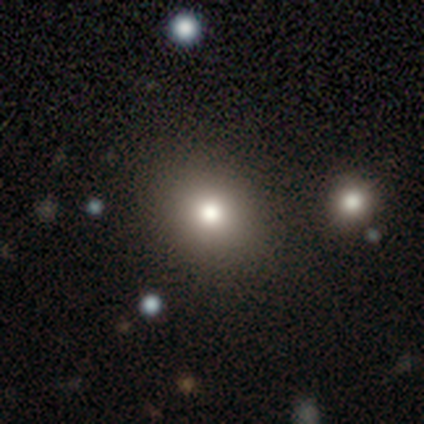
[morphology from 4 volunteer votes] This is clearly a smooth galaxy (100%). How rounded: likely round (75%). Merging: clearly none (100%).